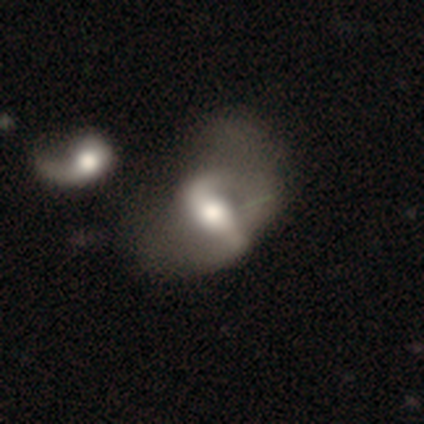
Smooth or featured? 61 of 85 (72%) said featured or disk. Edge-on disk? 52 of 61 (85%) said no. Bar? 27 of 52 (52%) said strong. Spiral arms? 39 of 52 (75%) said yes. Spiral winding? 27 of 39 (69%) said loose. Spiral arm count? 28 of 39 (72%) said 2. Bulge size? 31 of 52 (60%) said moderate. Merging? 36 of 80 (45%) said major disturbance.